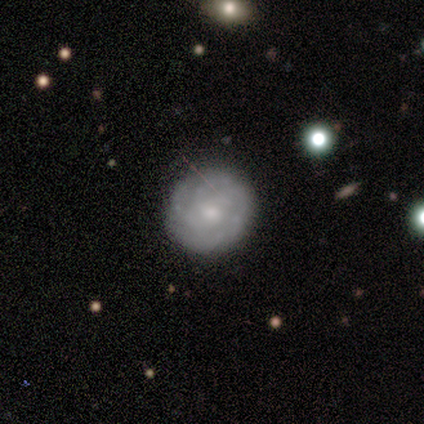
Smooth or featured? featured or disk (100%)
Edge-on disk? no (83%)
Bar? no (80%)
Spiral arms? yes (80%)
Spiral winding? tight (75%)
Spiral arm count? 2 (25%, tied with 4, more than 4 and can't tell)
Bulge size? moderate (80%)
Merging? none (100%)